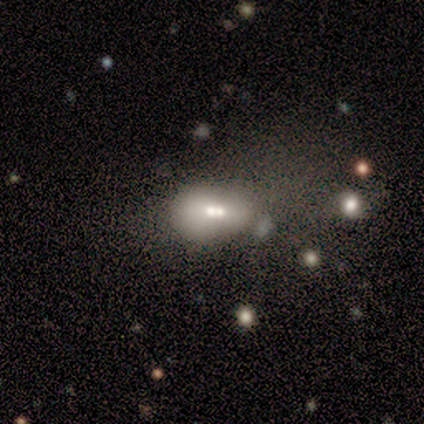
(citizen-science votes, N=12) Volunteers were most divided on "smooth or featured": smooth: 58%, featured or disk: 25%, star or artifact: 17%. More confident: how rounded — in between (86%); merging — merger (80%).